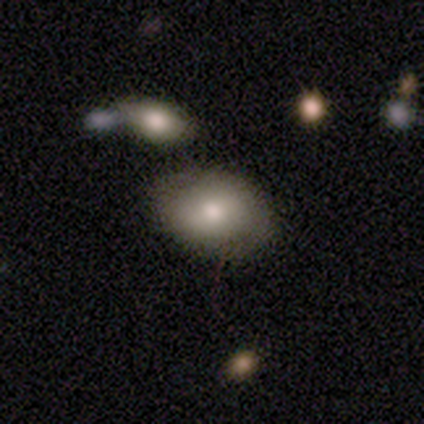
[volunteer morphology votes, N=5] smooth 80%, featured or disk 20%, star or artifact 0%. Down the decision tree: how rounded — in between (100%); merging — none (80%).